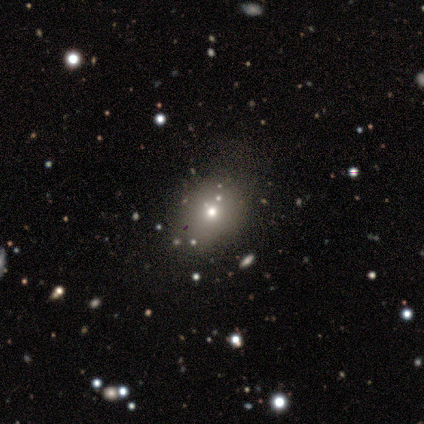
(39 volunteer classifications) smooth 64%, star or artifact 26%, featured or disk 10%. Down the decision tree: how rounded — round (52%); merging — none (62%).